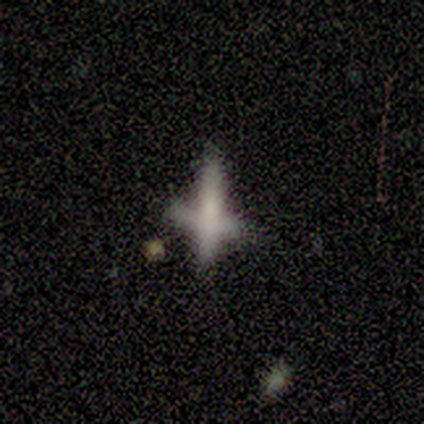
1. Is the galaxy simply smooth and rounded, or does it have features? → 60% featured or disk, 40% star or artifact, 0% smooth.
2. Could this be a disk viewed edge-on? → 67% yes, 33% no.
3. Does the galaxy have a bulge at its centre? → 100% boxy, 0% none, 0% rounded.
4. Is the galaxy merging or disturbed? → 100% merger, 0% none, 0% minor disturbance, 0% major disturbance.